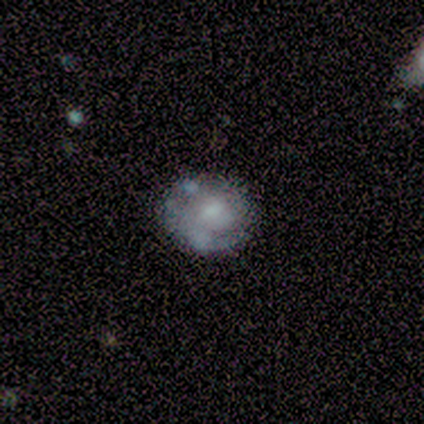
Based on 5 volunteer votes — Q: Smooth or featured?
A: featured or disk (60%); runner-up: smooth (40%)
Q: Edge-on disk?
A: no (100%)
Q: Bar?
A: no (100%)
Q: Spiral arms?
A: no (67%); runner-up: yes (33%)
Q: Bulge size?
A: large (33%); tied with: moderate (33%); small (33%)
Q: Merging?
A: none (80%); runner-up: minor disturbance (20%)